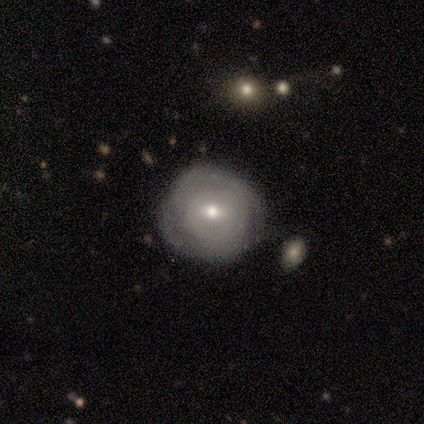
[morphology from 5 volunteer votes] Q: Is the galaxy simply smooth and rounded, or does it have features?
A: featured or disk — 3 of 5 (60%).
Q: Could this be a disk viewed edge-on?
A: no — 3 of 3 (100%).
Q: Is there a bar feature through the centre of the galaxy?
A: no — 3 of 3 (100%).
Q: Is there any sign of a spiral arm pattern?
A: yes — 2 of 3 (67%).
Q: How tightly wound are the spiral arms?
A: tight — 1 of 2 (50%, tied with medium).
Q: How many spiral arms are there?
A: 2 — 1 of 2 (50%, tied with can't tell).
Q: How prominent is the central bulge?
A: small — 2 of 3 (67%).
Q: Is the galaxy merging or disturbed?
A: none — 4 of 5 (80%).